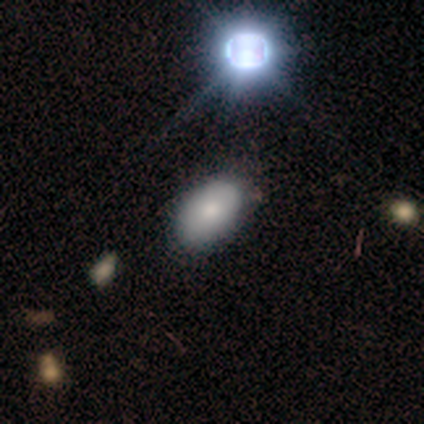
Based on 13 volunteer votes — A smooth galaxy with no disk features (77%) that is in between round and cigar-shaped (90%).

Vote fractions:
- Smooth or featured? smooth: 77% / featured or disk: 15% / star or artifact: 8%
- How rounded? in between: 90% / round: 10% / cigar-shaped: 0%
- Merging? none: 92% / minor disturbance: 8% / major disturbance: 0% / merger: 0%